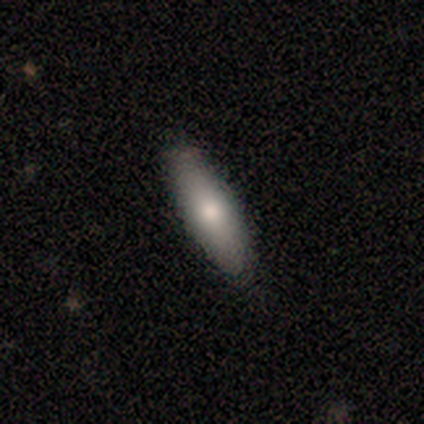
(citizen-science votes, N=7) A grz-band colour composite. It shows a smooth galaxy with no disk features (86%) that is in between round and cigar-shaped (67%). Merging: none (86%).